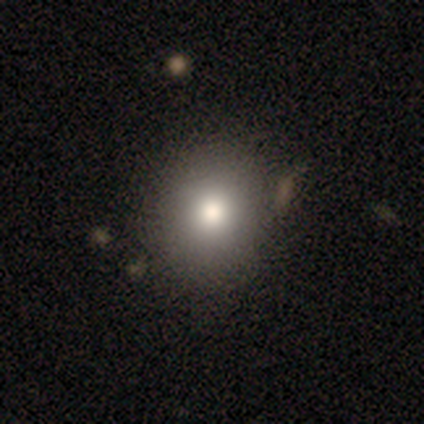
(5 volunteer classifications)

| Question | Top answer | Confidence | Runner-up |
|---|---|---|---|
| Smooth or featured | smooth | 100% | — |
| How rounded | round | 80% | in between (20%) |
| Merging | none | 100% | — |